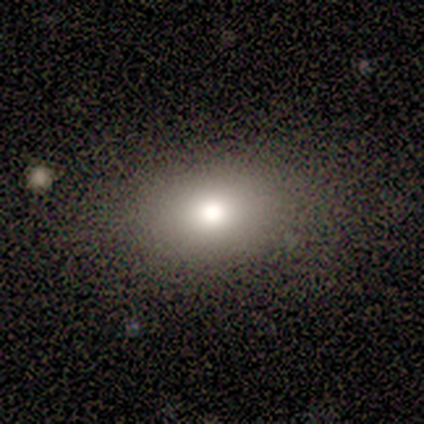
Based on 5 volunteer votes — Smooth or featured: smooth — 80% (featured or disk — 20%)
How rounded: in between — 75% (round — 25%)
Merging: none — 80% (minor disturbance — 20%)